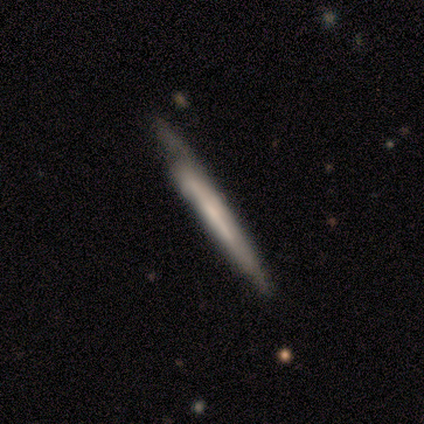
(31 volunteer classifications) A featured or disk galaxy (52%) viewed edge-on (94%) with no central bulge (67%).

Vote fractions:
- Smooth or featured? featured or disk: 52% / smooth: 48% / star or artifact: 0%
- Edge-on disk? yes: 94% / no: 6%
- Edge-on bulge? none: 67% / boxy: 20% / rounded: 13%
- Merging? none: 61% / minor disturbance: 23% / major disturbance: 10% / merger: 6%